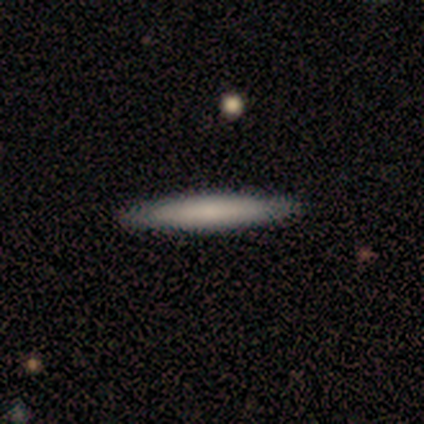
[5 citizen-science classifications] smooth 80%, star or artifact 20%, featured or disk 0%. Down the decision tree: how rounded — cigar-shaped (100%); merging — none (100%).